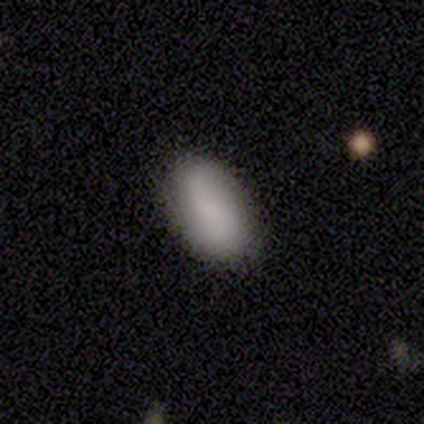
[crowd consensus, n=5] This appears to be a featured or disk galaxy (60%) with no bar (67%), 2 (67%) loose (67%) spiral arms (100%) and a moderate central bulge (67%). Merging: none (80%).